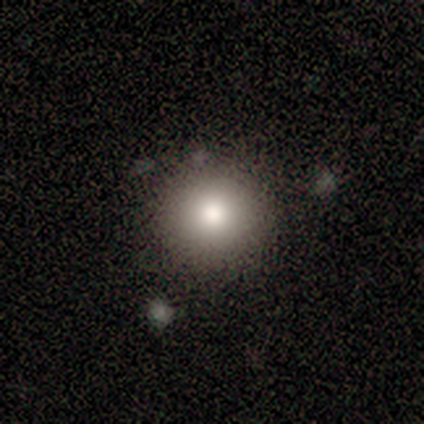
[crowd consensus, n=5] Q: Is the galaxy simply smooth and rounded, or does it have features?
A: smooth — 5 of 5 (100%).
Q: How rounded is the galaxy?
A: round — 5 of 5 (100%).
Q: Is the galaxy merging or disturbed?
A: none — 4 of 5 (80%).